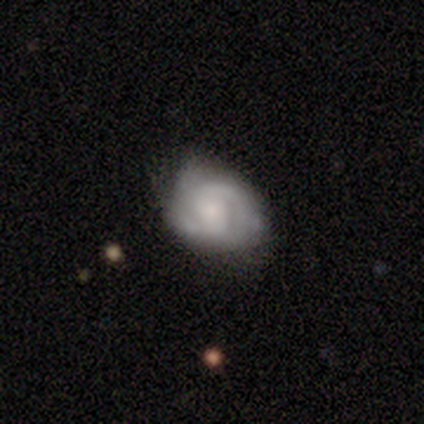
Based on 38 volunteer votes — Smooth or featured? featured or disk (79%)
Edge-on disk? no (100%)
Bar? no (50%)
Spiral arms? yes (90%)
Spiral winding? tight (52%)
Spiral arm count? 2 (74%)
Bulge size? small (60%)
Merging? none (54%)